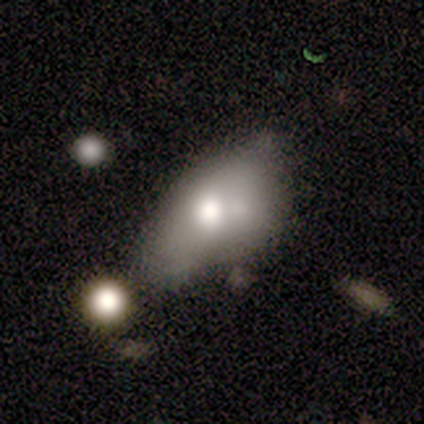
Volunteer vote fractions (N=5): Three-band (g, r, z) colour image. It shows a smooth galaxy with no disk features (80%) that is in between round and cigar-shaped (100%). Merging: minor disturbance (40%, tied with merger).